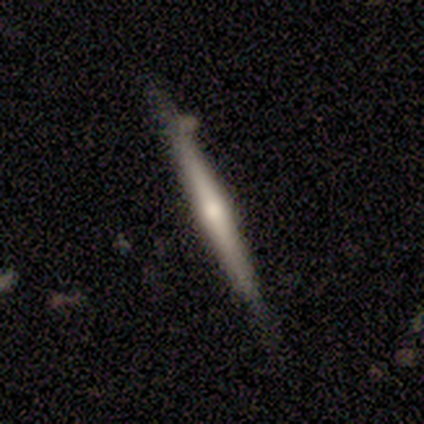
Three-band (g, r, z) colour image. It shows a featured or disk galaxy (80%) viewed edge-on (100%) with a rounded central bulge (100%). Merging: none (100%).